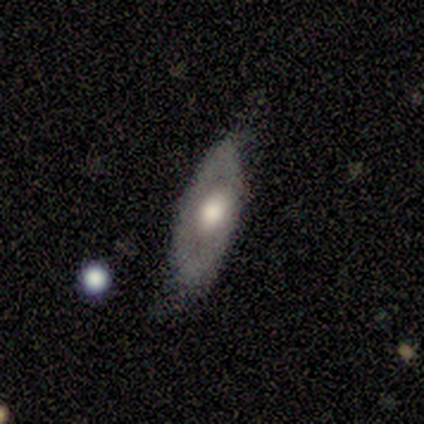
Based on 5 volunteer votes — smooth_or_featured: featured or disk (p=0.60) [alt: smooth p=0.20]
disk_edge_on: no (p=0.67) [alt: yes p=0.33]
bar: no (p=1.00)
has_spiral_arms: no (p=1.00)
bulge_size: large (p=1.00)
merging: none (p=0.75) [alt: minor disturbance p=0.25]